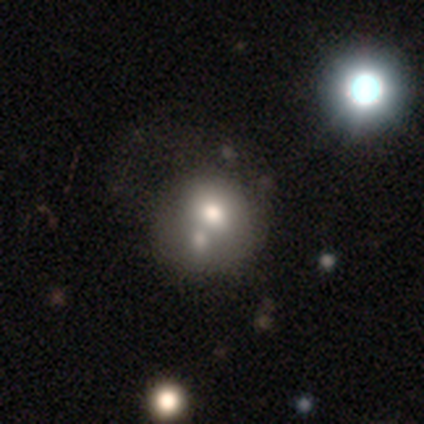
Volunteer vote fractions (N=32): Morphology: type=smooth (59%); roundness=round (68%); merging=merger (59%).